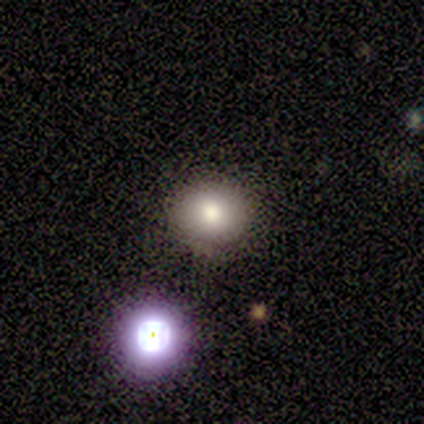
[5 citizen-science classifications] smooth 80%, star or artifact 20%, featured or disk 0%. Down the decision tree: how rounded — round (50%, tied with in between); merging — none (75%).